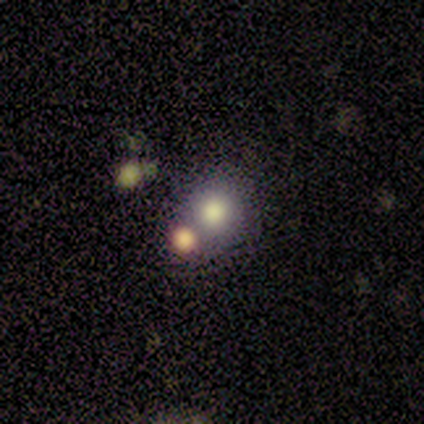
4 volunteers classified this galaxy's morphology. Volunteers were most divided on "how rounded": round: 75%, in between: 25%, cigar-shaped: 0%. More confident: smooth or featured — smooth (100%); merging — none (75%).